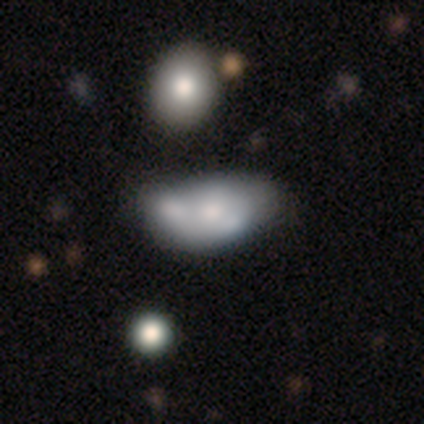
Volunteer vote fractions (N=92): smooth_or_featured: smooth (p=0.43) [alt: featured or disk p=0.41]
how_rounded: in between (p=0.90) [alt: round p=0.10]
merging: merger (p=0.36) [alt: none p=0.27]